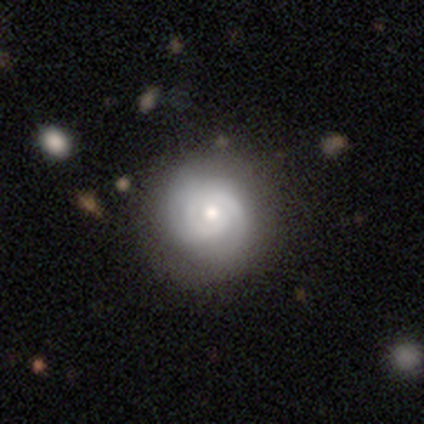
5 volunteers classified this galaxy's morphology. smooth-or-featured: featured or disk: 80% | smooth: 20% | star or artifact: 0%
  disk-edge-on: no: 100% | yes: 0%
    bar: no: 100% | strong: 0% | weak: 0%
    has-spiral-arms: yes: 100% | no: 0%
      spiral-winding: tight: 100% | medium: 0% | loose: 0%
      spiral-arm-count: 2: 50% | 1: 25% | 3: 25% | 4: 0% | more than 4: 0% | can't tell: 0%
    bulge-size: moderate: 50% (tied) | small: 50% (tied) | dominant: 0% | large: 0% | none: 0%
  merging: none: 80% | minor disturbance: 20% | major disturbance: 0% | merger: 0%